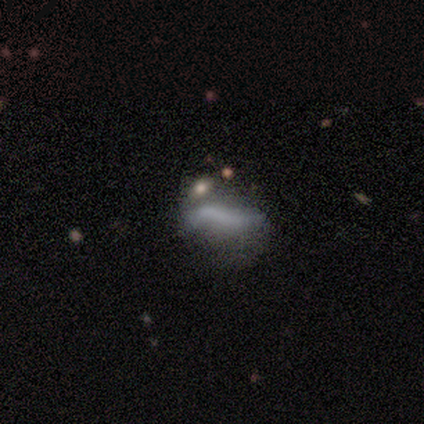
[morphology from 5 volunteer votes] A featured or disk galaxy (60%) with no bar (67%), 2 (67%) loose (67%) spiral arms (100%) and no central bulge (67%). Merging: none (60%).